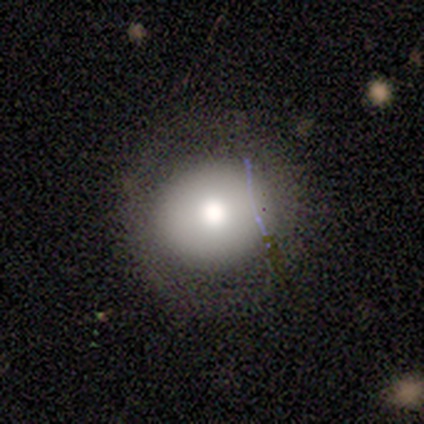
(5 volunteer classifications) Smooth or featured? smooth (80%)
How rounded? round (75%)
Merging? none (100%)